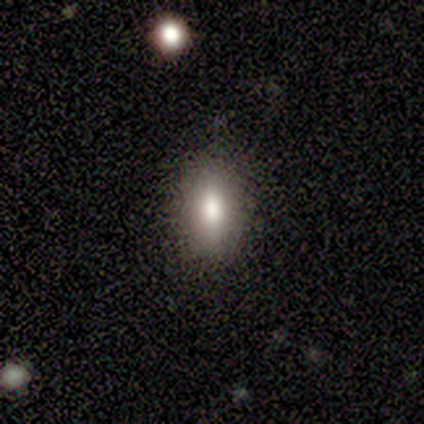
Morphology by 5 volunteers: smooth-or-featured: smooth: 60% | featured or disk: 40% | star or artifact: 0%
  how-rounded: in between: 67% | cigar-shaped: 33% | round: 0%
  merging: none: 100% | minor disturbance: 0% | major disturbance: 0% | merger: 0%